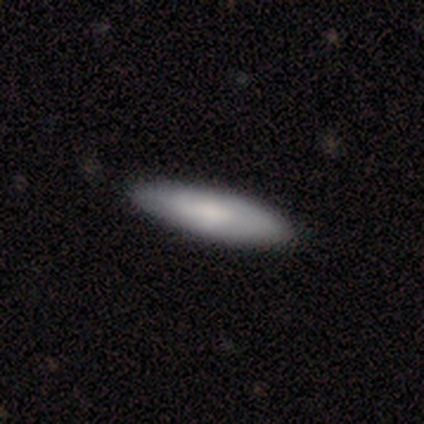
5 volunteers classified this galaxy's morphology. Q: Smooth or featured?
A: smooth (60%); runner-up: featured or disk (20%)
Q: How rounded?
A: cigar-shaped (100%)
Q: Merging?
A: none (100%)